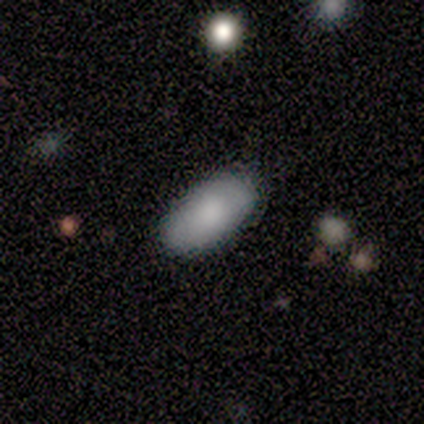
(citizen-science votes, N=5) Smooth or featured? 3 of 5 (60%) said smooth. How rounded? 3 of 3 (100%) said in between. Merging? 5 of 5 (100%) said none.